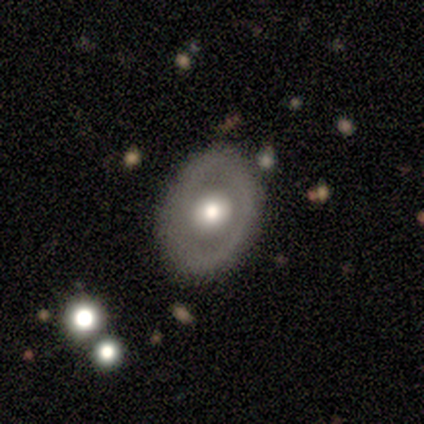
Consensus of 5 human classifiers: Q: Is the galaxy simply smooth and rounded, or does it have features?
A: featured or disk — 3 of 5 (60%).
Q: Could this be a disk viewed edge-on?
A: no — 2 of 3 (67%).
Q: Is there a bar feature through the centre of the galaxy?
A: no — 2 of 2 (100%).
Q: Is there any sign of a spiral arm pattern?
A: no — 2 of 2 (100%).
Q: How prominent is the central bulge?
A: moderate — 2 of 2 (100%).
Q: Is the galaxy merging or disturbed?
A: none — 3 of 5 (60%).